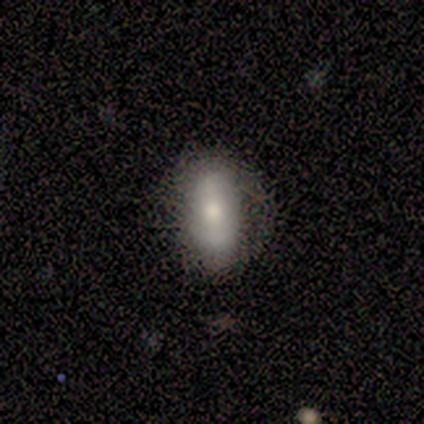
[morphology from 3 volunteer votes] This appears to be a smooth galaxy with no disk features (67%) that is in between round and cigar-shaped (100%). Merging: none (100%).